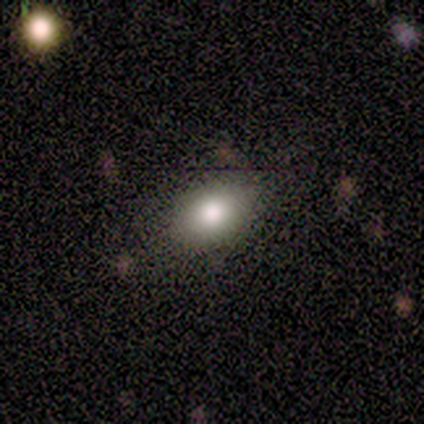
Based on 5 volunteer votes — This is clearly a smooth galaxy (100%). How rounded: clearly in between (80%). Merging: clearly none (80%).